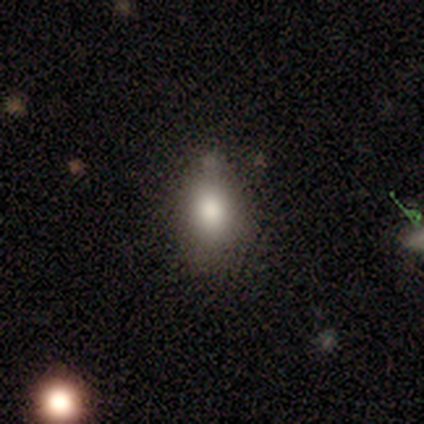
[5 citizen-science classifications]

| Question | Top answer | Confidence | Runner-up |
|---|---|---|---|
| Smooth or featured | smooth | 80% | star or artifact (20%) |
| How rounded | in between | 100% | — |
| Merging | none | 100% | — |